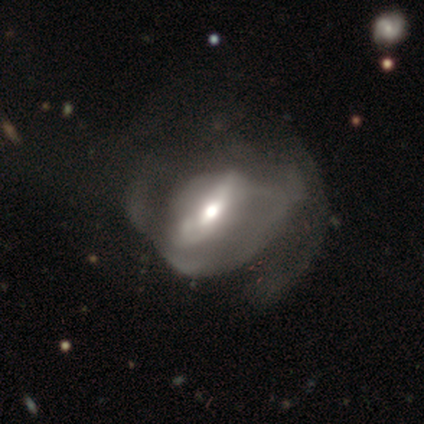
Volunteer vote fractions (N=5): Overall: smooth (60%; featured or disk 40%). How rounded: round (67%; in between 33%). Merging: major disturbance (80%).